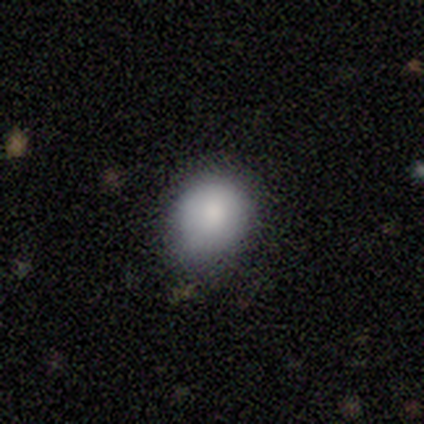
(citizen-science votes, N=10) smooth-or-featured: smooth: 70% | featured or disk: 30% | star or artifact: 0%
  how-rounded: in between: 57% | round: 43% | cigar-shaped: 0%
  merging: none: 70% | minor disturbance: 30% | major disturbance: 0% | merger: 0%